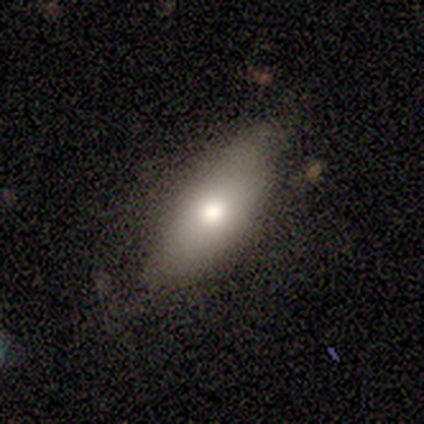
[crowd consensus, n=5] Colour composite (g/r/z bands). It shows a smooth galaxy with no disk features (80%) that is cigar-shaped (75%). Merging: none (80%).